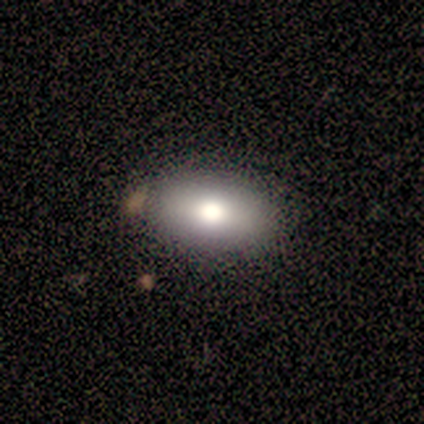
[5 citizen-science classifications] Smooth or featured: smooth — 100%
How rounded: in between — 100%
Merging: none — 100%